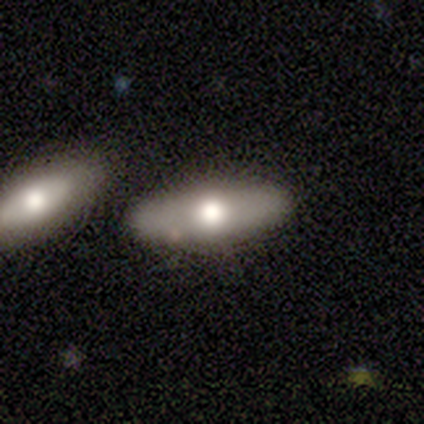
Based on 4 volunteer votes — This is possibly a smooth galaxy (50%, tied with featured or disk). How rounded: possibly in between (50%, tied with cigar-shaped). Merging: possibly none (50%, tied with minor disturbance).